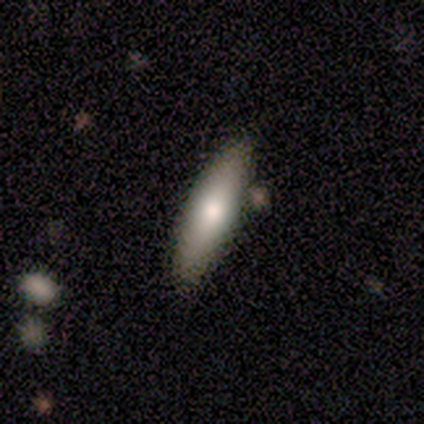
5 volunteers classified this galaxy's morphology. Smooth or featured?
  - smooth: 100% *
  - featured or disk: 0%
  - star or artifact: 0%
How rounded?
  - cigar-shaped: 60% *
  - in between: 40%
  - round: 0%
Merging?
  - none: 60% *
  - minor disturbance: 40%
  - major disturbance: 0%
  - merger: 0%